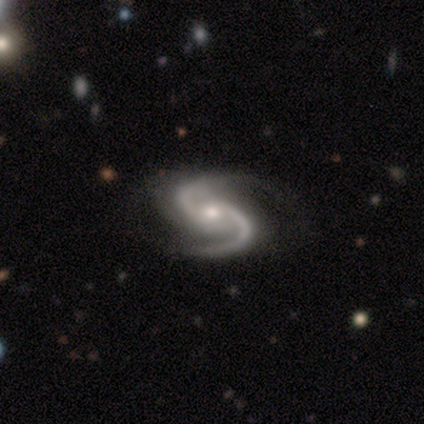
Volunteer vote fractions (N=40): A featured or disk galaxy (95%) with no bar (76%), 2 (97%) medium (71%) spiral arms (100%) and a moderate central bulge (47%).

Vote fractions:
- Smooth or featured? featured or disk: 95% / smooth: 2% / star or artifact: 2%
- Edge-on disk? no: 100% / yes: 0%
- Bar? no: 76% / weak: 21% / strong: 3%
- Spiral arms? yes: 100% / no: 0%
- Spiral winding? medium: 71% / loose: 21% / tight: 8%
- Spiral arm count? 2: 97% / 3: 3% / 1: 0% / 4: 0% / more than 4: 0% / can't tell: 0%
- Bulge size? moderate: 47% / small: 34% / large: 11% / dominant: 5% / none: 3%
- Merging? none: 51% / minor disturbance: 18% / major disturbance: 8% / merger: 0%